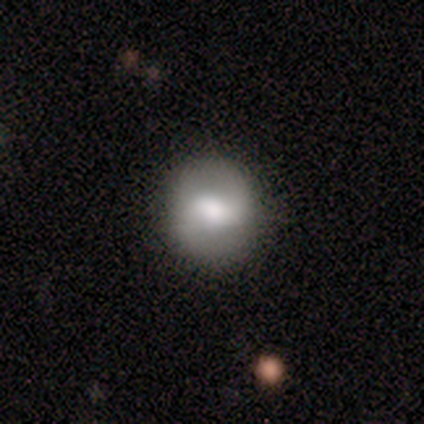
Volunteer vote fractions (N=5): smooth-or-featured: smooth: 40% (tied) | featured or disk: 40% (tied) | star or artifact: 20%
  how-rounded: round: 100% | in between: 0% | cigar-shaped: 0%
  merging: none: 100% | minor disturbance: 0% | major disturbance: 0% | merger: 0%